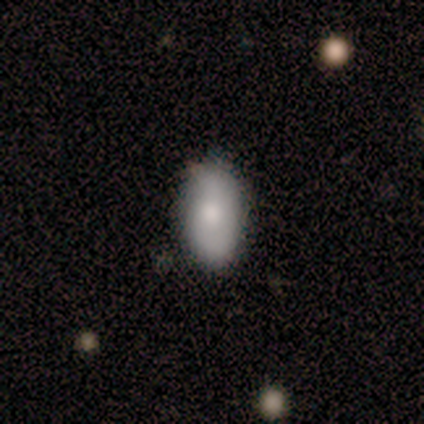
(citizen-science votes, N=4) Smooth or featured: smooth — 50% (tied with star or artifact — 50%)
How rounded: in between — 100%
Merging: none — 100%